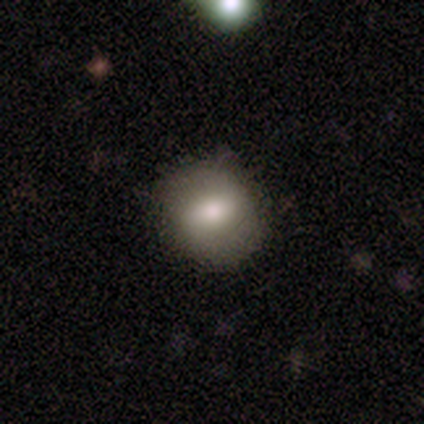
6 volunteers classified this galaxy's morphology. A smooth galaxy with no disk features (67%) that is in between round and cigar-shaped (75%). Merging: none (83%).